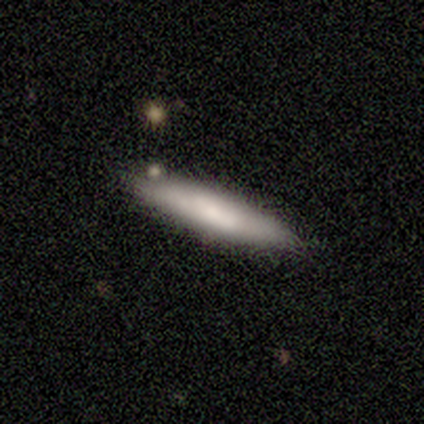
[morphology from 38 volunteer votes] A smooth galaxy with no disk features (58%) that is cigar-shaped (91%).

Vote fractions:
- Smooth or featured? smooth: 58% / featured or disk: 34% / star or artifact: 8%
- How rounded? cigar-shaped: 91% / in between: 9% / round: 0%
- Merging? none: 69% / minor disturbance: 26% / merger: 6% / major disturbance: 0%